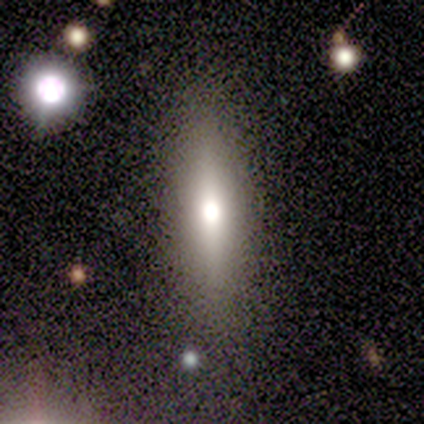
Q: Smooth or featured?
A: smooth (54%); runner-up: featured or disk (38%)
Q: How rounded?
A: cigar-shaped (86%); runner-up: in between (14%)
Q: Merging?
A: none (92%); runner-up: major disturbance (8%)